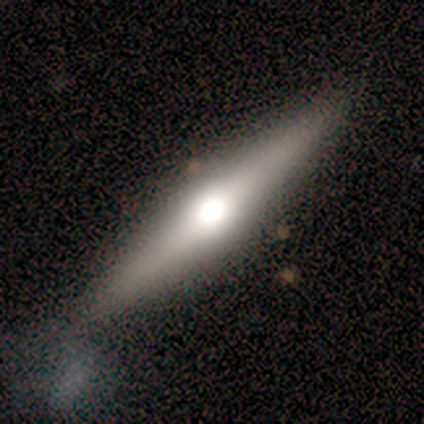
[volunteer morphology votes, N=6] A featured or disk galaxy (83%) viewed edge-on (100%) with a rounded central bulge (100%). Merging: none (83%).